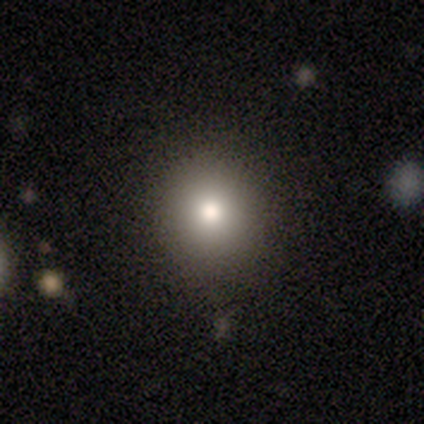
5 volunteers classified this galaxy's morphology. smooth-or-featured: smooth: 40% (tied) | star or artifact: 40% (tied) | featured or disk: 20%
  how-rounded: round: 100% | in between: 0% | cigar-shaped: 0%
  merging: none: 100% | minor disturbance: 0% | major disturbance: 0% | merger: 0%